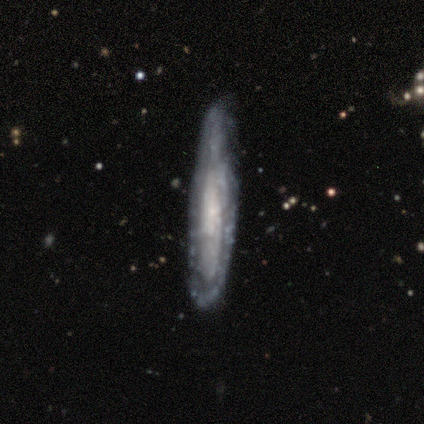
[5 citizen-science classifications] Volunteers were most divided on "edge-on disk": no: 60%, yes: 40%. More confident: smooth or featured — featured or disk (100%); spiral arms — yes (100%); spiral arm count — can't tell (100%); bar — no (67%); spiral winding — medium (67%); bulge size — small (67%); merging — minor disturbance (60%).